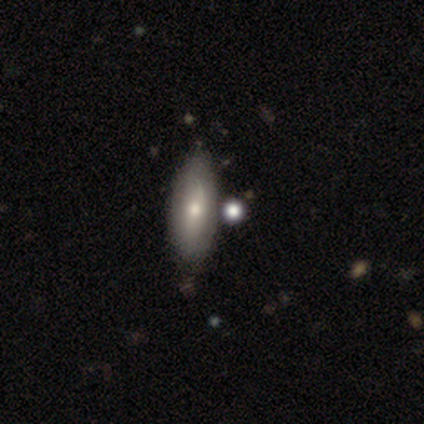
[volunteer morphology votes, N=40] Volunteers were most divided on "smooth or featured": smooth: 60%, featured or disk: 35%, star or artifact: 5%. More confident: how rounded — in between (62%); merging — none (53%).